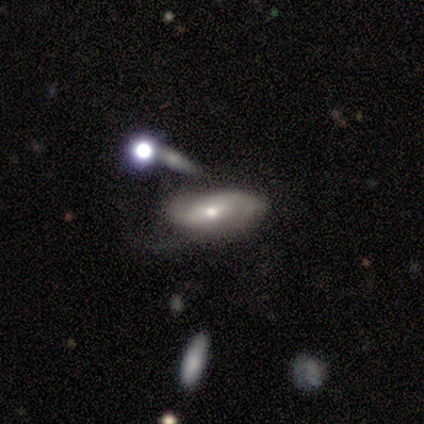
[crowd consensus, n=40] Overall: featured or disk (60%; smooth 30%). Edge-on disk: no (100%). Bar: no (50%; weak 33%). Spiral arms: yes (83%). Spiral arm count: 2 (70%). Spiral winding: loose (45%; tight 30%). Bulge size: moderate (62%; small 33%). Merging: none (53%; minor disturbance 22%).